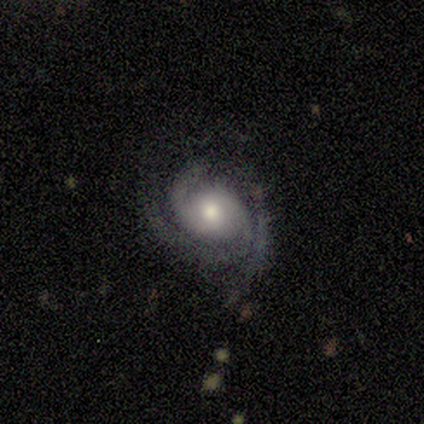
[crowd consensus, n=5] Q: Smooth or featured?
A: featured or disk (60%); runner-up: smooth (40%)
Q: Edge-on disk?
A: no (100%)
Q: Bar?
A: no (100%)
Q: Spiral arms?
A: yes (100%)
Q: Spiral winding?
A: tight (67%); runner-up: medium (33%)
Q: Spiral arm count?
A: 2 (100%)
Q: Bulge size?
A: moderate (67%); runner-up: large (33%)
Q: Merging?
A: none (80%); runner-up: major disturbance (20%)